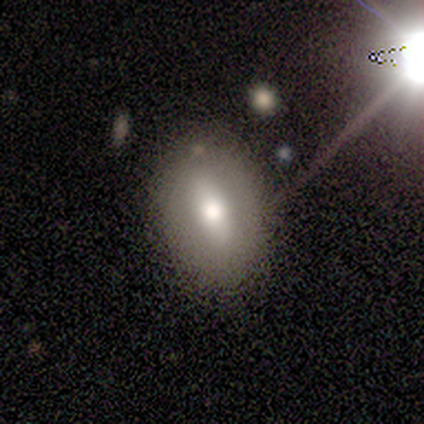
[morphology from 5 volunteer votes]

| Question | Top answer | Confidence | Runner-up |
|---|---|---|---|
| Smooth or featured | smooth | 40% | tied: featured or disk (40%) |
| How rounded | in between | 100% | — |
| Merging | none | 100% | — |